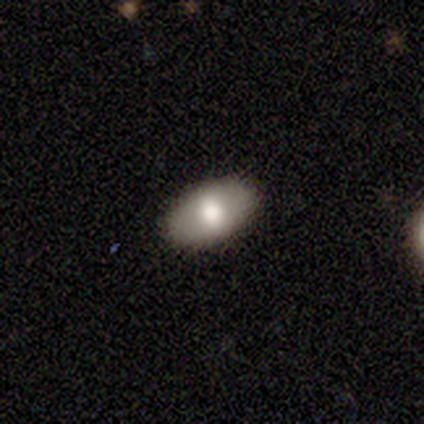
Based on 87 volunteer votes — smooth_or_featured: smooth (p=0.76) [alt: featured or disk p=0.20]
how_rounded: in between (p=0.94) [alt: round p=0.05]
merging: none (p=0.93) [alt: minor disturbance p=0.06]